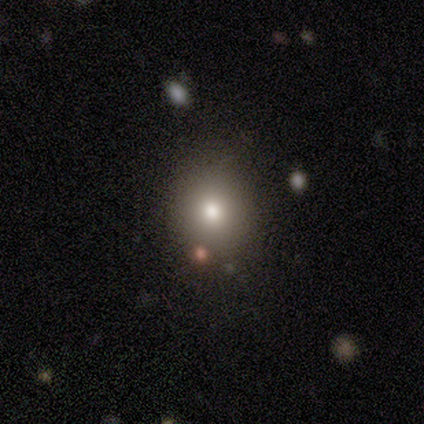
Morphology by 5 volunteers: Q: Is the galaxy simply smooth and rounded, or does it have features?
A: smooth — 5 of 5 (100%).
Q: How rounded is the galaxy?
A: round — 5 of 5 (100%).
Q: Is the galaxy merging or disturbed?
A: none — 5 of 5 (100%).